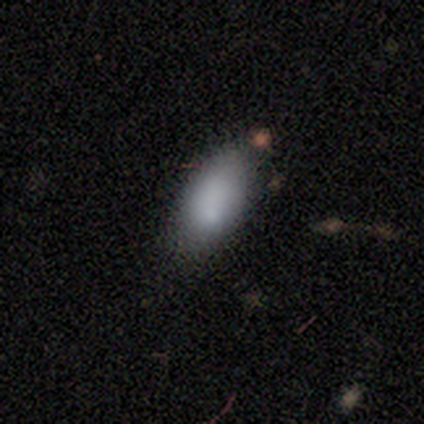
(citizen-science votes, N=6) This appears to be a smooth galaxy with no disk features (67%) that is in between round and cigar-shaped (100%). Merging: none (67%).